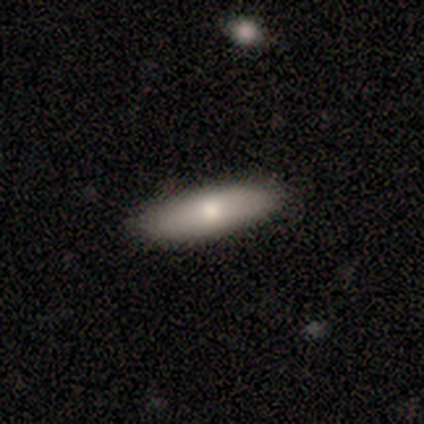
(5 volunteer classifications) Volunteers were most divided on "how rounded": in between: 75%, cigar-shaped: 25%, round: 0%. More confident: merging — none (100%); smooth or featured — smooth (80%).